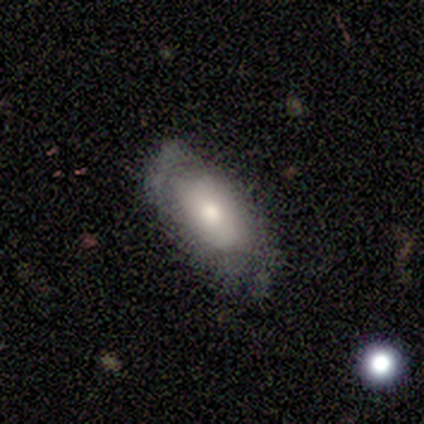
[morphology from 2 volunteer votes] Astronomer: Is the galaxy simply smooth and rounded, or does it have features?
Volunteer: smooth — 50%, tied with featured or disk at 50%.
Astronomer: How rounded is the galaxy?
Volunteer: in between — 100%.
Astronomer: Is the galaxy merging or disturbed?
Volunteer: minor disturbance — 50%, tied with major disturbance at 50%.